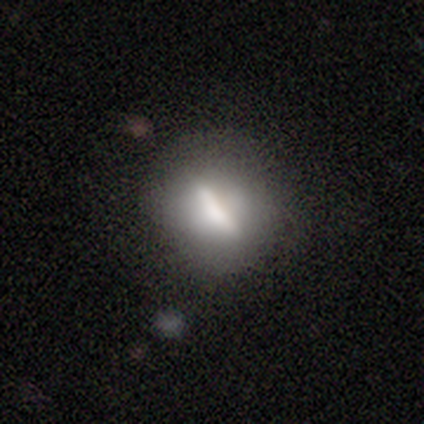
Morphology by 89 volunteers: Q: Smooth or featured?
A: smooth (47%); runner-up: featured or disk (40%)
Q: How rounded?
A: round (45%); runner-up: cigar-shaped (33%)
Q: Merging?
A: none (67%); runner-up: minor disturbance (24%)